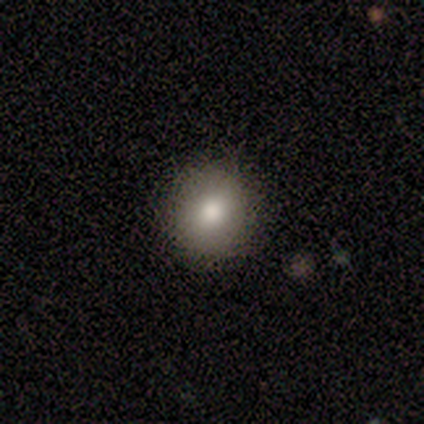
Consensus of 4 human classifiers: This appears to be a smooth galaxy with no disk features (100%) that is round (100%). Merging: none (100%).